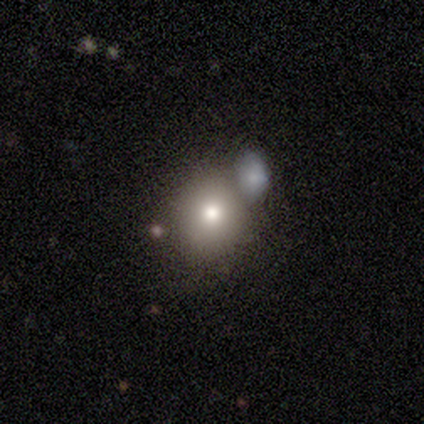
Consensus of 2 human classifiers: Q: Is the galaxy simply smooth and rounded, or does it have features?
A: smooth — 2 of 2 (100%).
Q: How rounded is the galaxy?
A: round — 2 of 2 (100%).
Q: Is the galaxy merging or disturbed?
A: minor disturbance — 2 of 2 (100%).